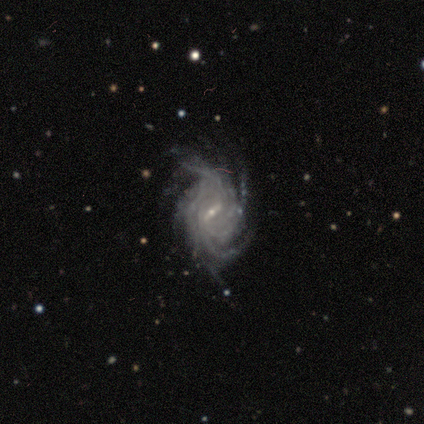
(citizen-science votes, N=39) Smooth or featured? featured or disk (90%)
Edge-on disk? no (100%)
Bar? strong (49%)
Spiral arms? yes (97%)
Spiral winding? tight (53%)
Spiral arm count? more than 4 (50%)
Bulge size? small (86%)
Merging? none (53%)